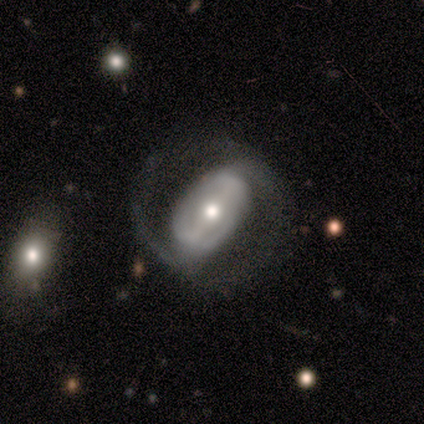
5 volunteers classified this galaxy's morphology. Smooth or featured? featured or disk (80%)
Edge-on disk? no (100%)
Bar? strong (50%, tied with weak)
Spiral arms? yes (75%)
Spiral winding? medium (67%)
Spiral arm count? 2 (100%)
Bulge size? moderate (100%)
Merging? none (75%)